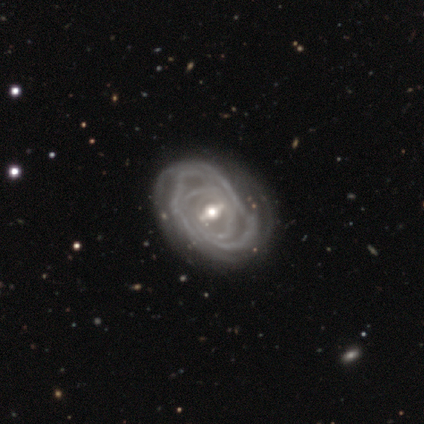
Smooth or featured?
  - featured or disk: 100% *
  - smooth: 0%
  - star or artifact: 0%
Edge-on disk?
  - no: 78% *
  - yes: 22%
Bar?
  - weak: 71% *
  - strong: 29%
  - no: 0%
Spiral arms?
  - yes: 86% *
  - no: 14%
Spiral winding?
  - tight: 67% *
  - medium: 17%
  - loose: 17%
Spiral arm count?
  - can't tell: 83% *
  - 3: 17%
  - 1: 0%
  - 2: 0%
  - 4: 0%
  - more than 4: 0%
Bulge size?
  - moderate: 57% *
  - small: 43%
  - dominant: 0%
  - large: 0%
  - none: 0%
Merging?
  - none: 89% *
  - major disturbance: 11%
  - minor disturbance: 0%
  - merger: 0%